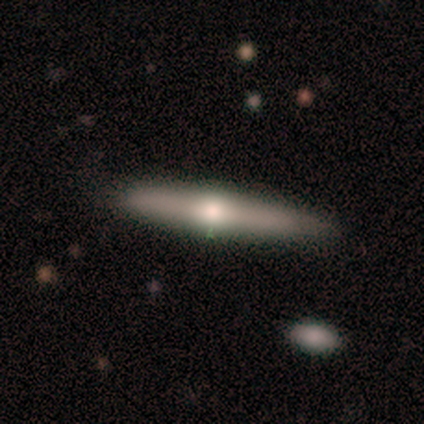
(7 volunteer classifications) smooth_or_featured: smooth (p=0.57) [alt: featured or disk p=0.43]
how_rounded: cigar-shaped (p=1.00)
merging: none (p=0.71) [alt: minor disturbance p=0.29]